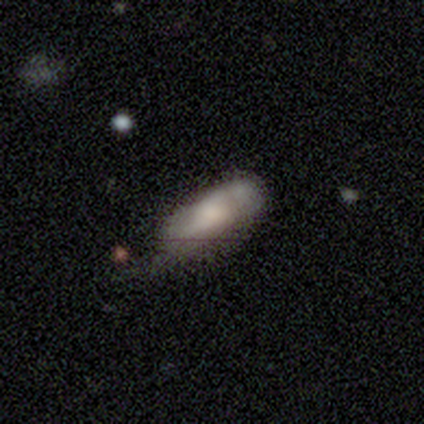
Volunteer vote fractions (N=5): A featured or disk galaxy (80%) with a weak bar (67%), no spiral arms (67%) and a large central bulge (100%).

Vote fractions:
- Smooth or featured? featured or disk: 80% / smooth: 20% / star or artifact: 0%
- Edge-on disk? no: 75% / yes: 25%
- Bar? weak: 67% / no: 33% / strong: 0%
- Spiral arms? no: 67% / yes: 33%
- Bulge size? large: 100% / dominant: 0% / moderate: 0% / small: 0% / none: 0%
- Merging? minor disturbance: 40% / none: 20% / major disturbance: 20% / merger: 20%